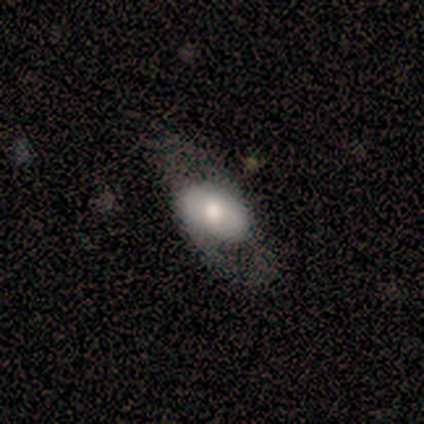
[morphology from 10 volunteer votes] Smooth or featured? smooth (60%)
How rounded? in between (100%)
Merging? none (50%)